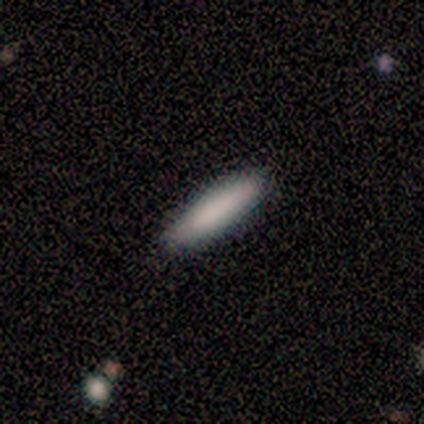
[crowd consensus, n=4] Morphology: type=smooth (75%); roundness=cigar-shaped (67%); merging=none (100%).